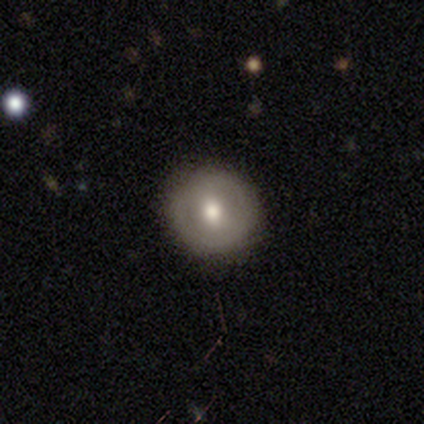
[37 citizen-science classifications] Smooth or featured? smooth (54%)
How rounded? round (100%)
Merging? none (88%)